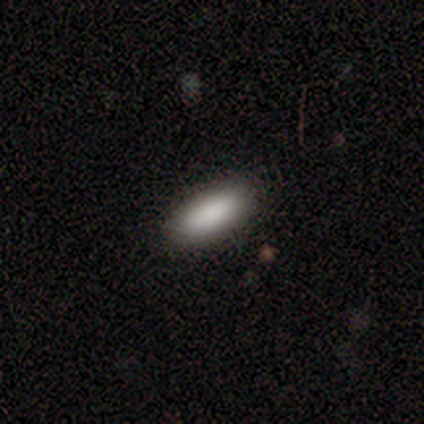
Overall: smooth (100%). How rounded: in between (80%). Merging: none (100%).